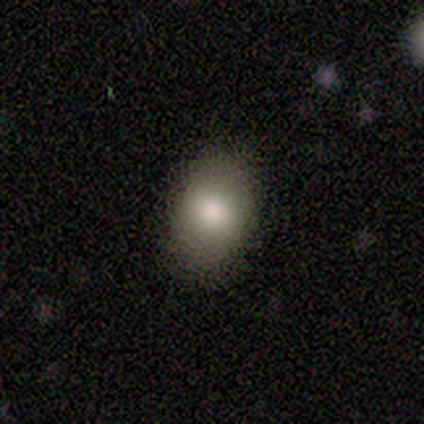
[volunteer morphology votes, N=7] type=smooth (100%); roundness=in between (86%); merging=none (86%).